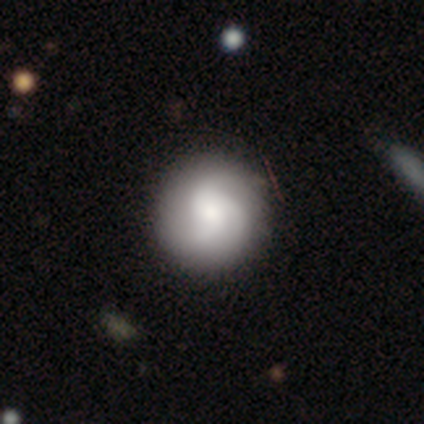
Morphology: type=featured or disk (56%); edge-on=no (100%); bar=no (100%); spiral arms=yes (100%); winding=tight (40%, tied with medium); arm count=3 (80%); bulge=small (60%); merging=none (100%).